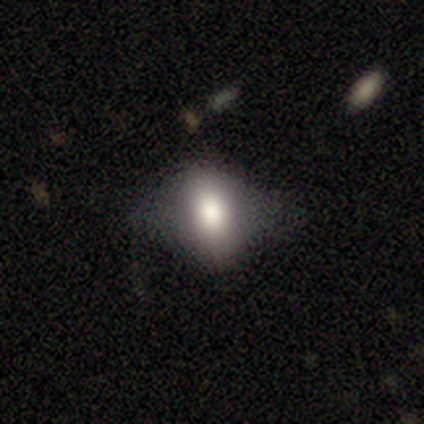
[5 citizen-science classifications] A smooth galaxy with no disk features (80%) that is in between round and cigar-shaped (100%). Merging: minor disturbance (60%).